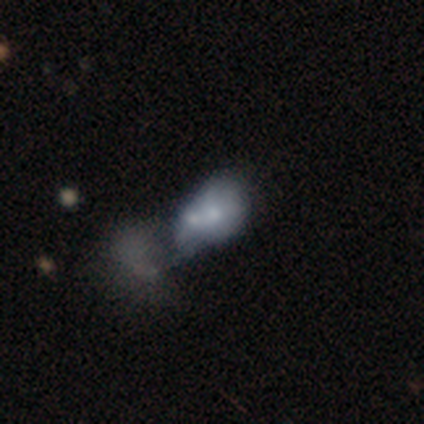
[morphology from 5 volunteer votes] Smooth or featured? 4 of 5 (80%) said featured or disk. Edge-on disk? 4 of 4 (100%) said no. Bar? 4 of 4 (100%) said no. Spiral arms? 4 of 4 (100%) said no. Bulge size? 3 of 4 (75%) said small. Merging? 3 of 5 (60%) said merger.